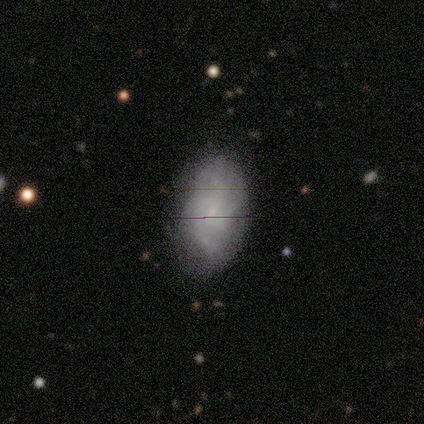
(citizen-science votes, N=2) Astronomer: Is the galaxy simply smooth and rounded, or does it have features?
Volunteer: featured or disk — 50%, tied with star or artifact at 50%.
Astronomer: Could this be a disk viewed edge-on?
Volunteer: no — 100%.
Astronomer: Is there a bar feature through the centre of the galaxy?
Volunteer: no — 100%.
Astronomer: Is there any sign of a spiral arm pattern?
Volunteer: yes — 100%.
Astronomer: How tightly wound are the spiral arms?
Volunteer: tight — 100%.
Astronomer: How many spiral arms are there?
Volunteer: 3 — 100%.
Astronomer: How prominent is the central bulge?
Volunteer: none — 100%.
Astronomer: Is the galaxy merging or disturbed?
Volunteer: none — 100%.